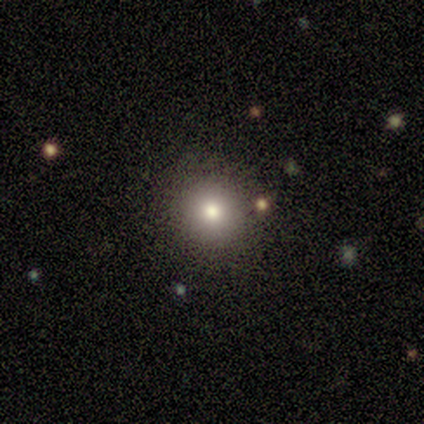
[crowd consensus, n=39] A smooth galaxy with no disk features (77%) that is round (93%). Merging: none (91%).